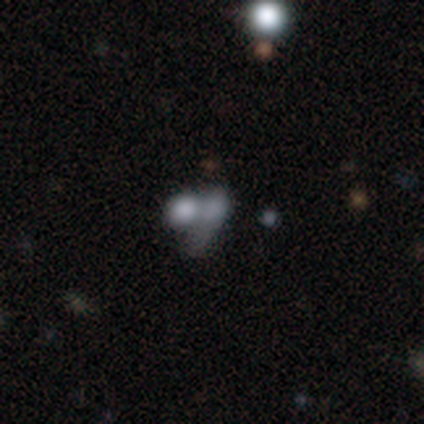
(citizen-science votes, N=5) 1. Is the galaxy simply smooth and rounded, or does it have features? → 80% smooth, 20% featured or disk, 0% star or artifact.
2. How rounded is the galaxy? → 75% in between, 25% cigar-shaped, 0% round.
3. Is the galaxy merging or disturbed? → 60% merger, 20% none, 20% major disturbance, 0% minor disturbance.